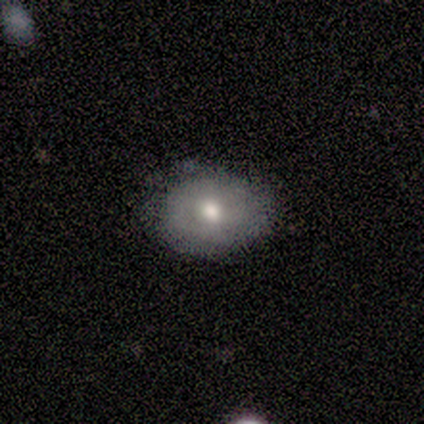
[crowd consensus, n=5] This is likely a smooth galaxy (60%). How rounded: likely round (67%). Merging: likely none (60%).